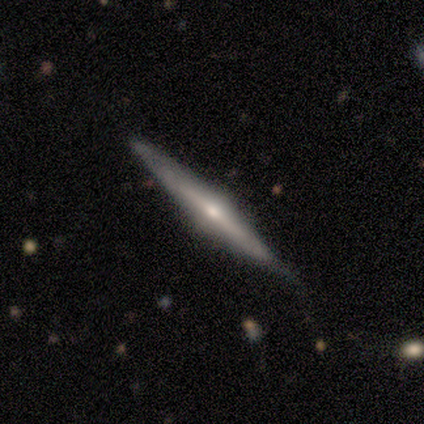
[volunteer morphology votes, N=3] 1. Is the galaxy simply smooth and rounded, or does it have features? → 67% featured or disk, 33% smooth, 0% star or artifact.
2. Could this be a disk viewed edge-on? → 100% yes, 0% no.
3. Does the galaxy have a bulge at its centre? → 100% rounded, 0% boxy, 0% none.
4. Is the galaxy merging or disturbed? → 67% none, 33% minor disturbance, 0% major disturbance, 0% merger.